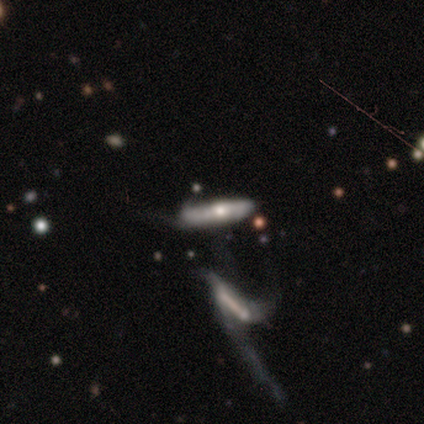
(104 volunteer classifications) This is likely a featured or disk galaxy (63%). It is possibly viewed edge-on (52%). Edge-on bulge: clearly rounded (91%). Merging: marginally merger (41%).